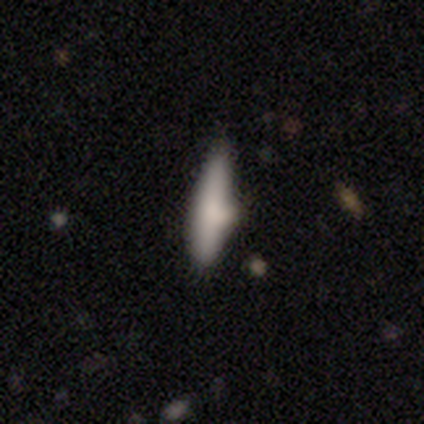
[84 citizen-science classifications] Volunteers were most divided on "merging": none: 61%, minor disturbance: 25%, merger: 9%, major disturbance: 4%. More confident: how rounded — cigar-shaped (88%); smooth or featured — smooth (69%).